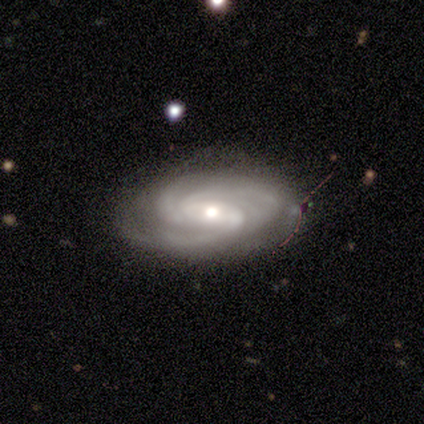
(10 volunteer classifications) Smooth or featured? featured or disk (100%)
Edge-on disk? no (100%)
Bar? no (50%)
Spiral arms? yes (100%)
Spiral winding? medium (60%)
Spiral arm count? 3 (60%)
Bulge size? moderate (50%)
Merging? none (90%)